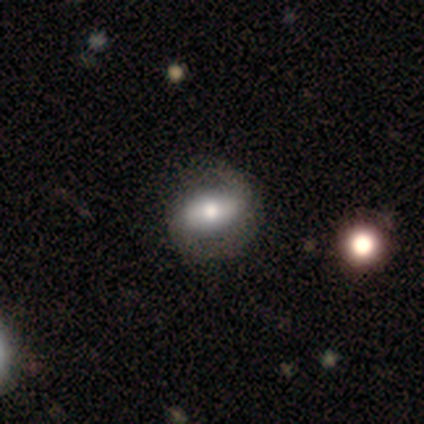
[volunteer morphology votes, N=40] Smooth or featured: featured or disk — 55% (smooth — 45%)
Edge-on disk: no — 91% (yes — 9%)
Bar: strong — 45% (no — 30%)
Spiral arms: yes — 85% (no — 15%)
Spiral winding: medium — 47% (tight — 41%)
Spiral arm count: 2 — 94% (can't tell — 6%)
Bulge size: moderate — 70% (large — 20%)
Merging: none — 45% (major disturbance — 12%)